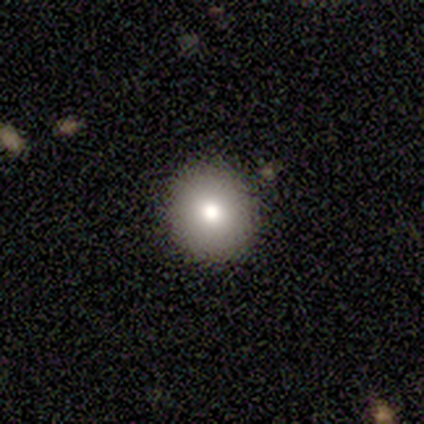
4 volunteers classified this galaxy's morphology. Smooth or featured? 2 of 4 (50%, tied with featured or disk) said smooth. How rounded? 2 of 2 (100%) said round. Merging? 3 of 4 (75%) said none.